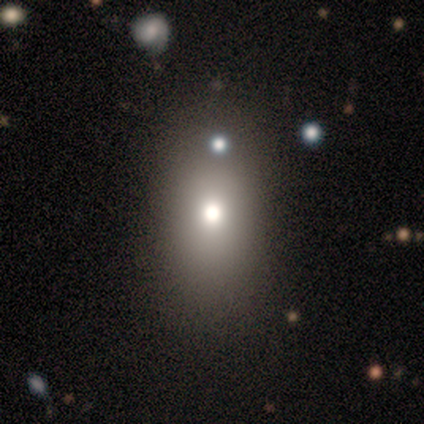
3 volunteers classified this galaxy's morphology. This appears to be a smooth galaxy with no disk features (33%, tied with featured or disk and star or artifact) that is in between round and cigar-shaped (100%). Merging: none (50%, tied with minor disturbance).